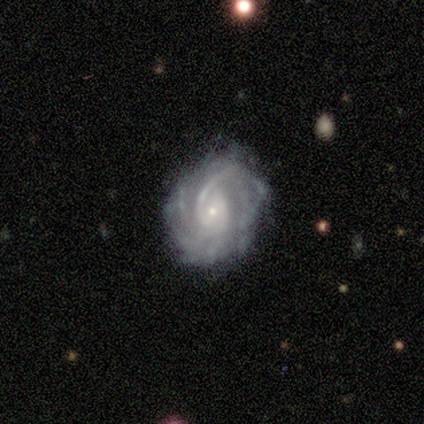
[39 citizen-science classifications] Smooth or featured?
  - featured or disk: 95% *
  - smooth: 3%
  - star or artifact: 3%
Edge-on disk?
  - no: 97% *
  - yes: 3%
Bar?
  - no: 47% *
  - weak: 39%
  - strong: 14%
Spiral arms?
  - yes: 97% *
  - no: 3%
Spiral winding?
  - tight: 54% *
  - medium: 40%
  - loose: 6%
Spiral arm count?
  - can't tell: 37% *
  - 2: 26%
  - more than 4: 20%
  - 3: 9%
  - 4: 6%
  - 1: 3%
Bulge size?
  - small: 92% *
  - moderate: 8%
  - dominant: 0%
  - large: 0%
  - none: 0%
Merging?
  - none: 66% *
  - minor disturbance: 26%
  - major disturbance: 8%
  - merger: 0%